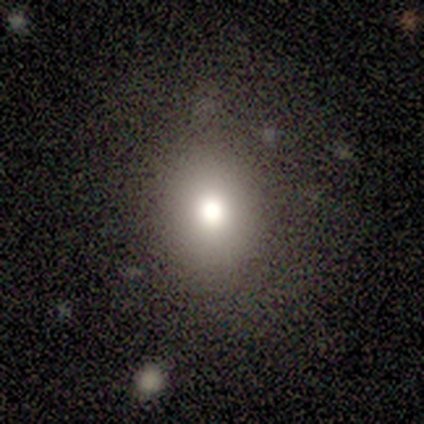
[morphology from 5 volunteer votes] Q: Smooth or featured?
A: smooth (80%); runner-up: star or artifact (20%)
Q: How rounded?
A: round (100%)
Q: Merging?
A: none (100%)